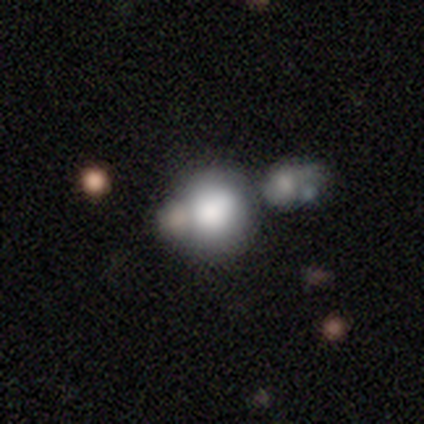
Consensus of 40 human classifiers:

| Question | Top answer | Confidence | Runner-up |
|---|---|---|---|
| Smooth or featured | smooth | 78% | featured or disk (12%) |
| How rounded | round | 81% | in between (16%) |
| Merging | merger | 39% | none (33%) |